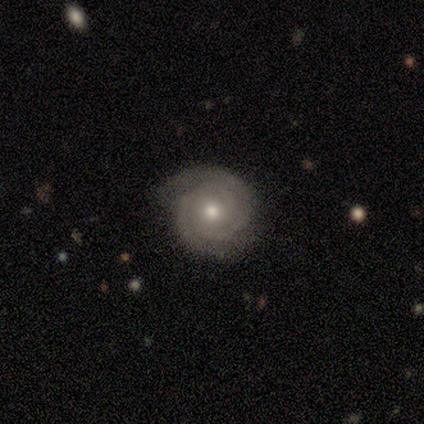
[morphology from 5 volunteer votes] Smooth or featured? 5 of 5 (100%) said featured or disk. Edge-on disk? 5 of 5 (100%) said no. Bar? 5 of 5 (100%) said no. Spiral arms? 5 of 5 (100%) said yes. Spiral winding? 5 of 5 (100%) said tight. Spiral arm count? 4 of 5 (80%) said 2. Bulge size? 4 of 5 (80%) said moderate. Merging? 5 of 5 (100%) said none.